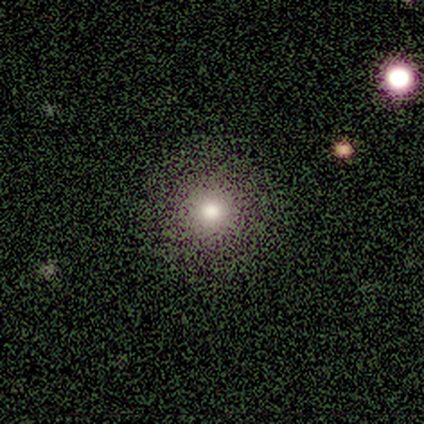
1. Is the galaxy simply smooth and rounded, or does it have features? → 50% smooth (tied), 50% star or artifact (tied), 0% featured or disk.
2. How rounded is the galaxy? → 100% round, 0% in between, 0% cigar-shaped.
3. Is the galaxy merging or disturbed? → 100% none, 0% minor disturbance, 0% major disturbance, 0% merger.